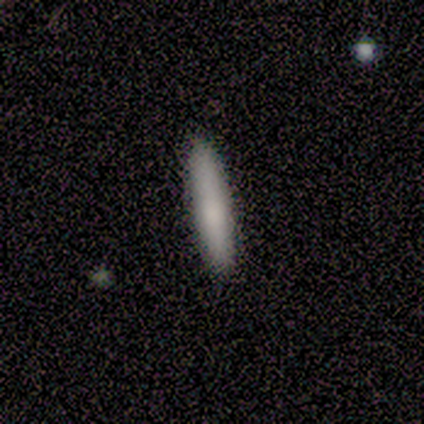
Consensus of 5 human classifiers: Smooth or featured: smooth — 100%
How rounded: cigar-shaped — 80% (in between — 20%)
Merging: none — 100%